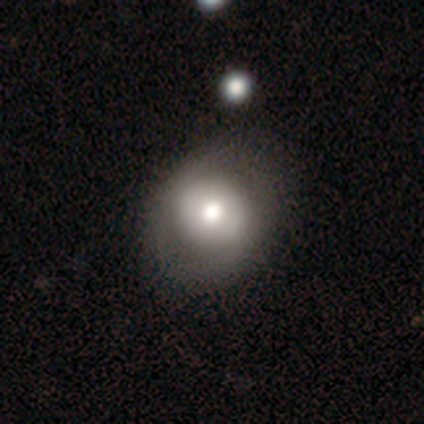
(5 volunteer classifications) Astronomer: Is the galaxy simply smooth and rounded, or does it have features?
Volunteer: smooth — 80%.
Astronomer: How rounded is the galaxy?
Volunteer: round — 75%.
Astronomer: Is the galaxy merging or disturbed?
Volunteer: none — 80%.